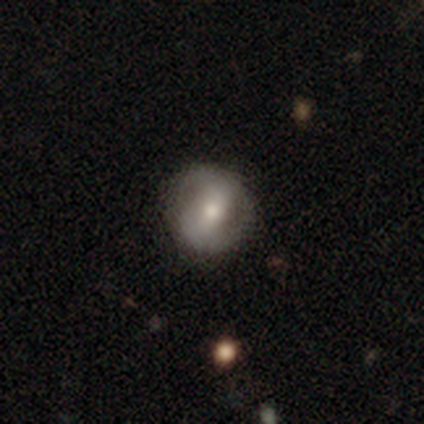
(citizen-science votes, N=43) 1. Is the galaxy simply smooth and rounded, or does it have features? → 56% featured or disk, 42% smooth, 2% star or artifact.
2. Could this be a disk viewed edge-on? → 100% no, 0% yes.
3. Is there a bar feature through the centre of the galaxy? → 62% weak, 25% strong, 12% no.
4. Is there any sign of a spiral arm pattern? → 75% yes, 25% no.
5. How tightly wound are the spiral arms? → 44% medium, 28% tight, 28% loose.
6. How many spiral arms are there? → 83% 2, 11% can't tell, 6% 1, 0% 3, 0% 4, 0% more than 4.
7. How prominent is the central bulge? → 71% moderate, 29% small, 0% dominant, 0% large, 0% none.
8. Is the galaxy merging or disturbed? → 76% none, 19% minor disturbance, 5% major disturbance, 0% merger.